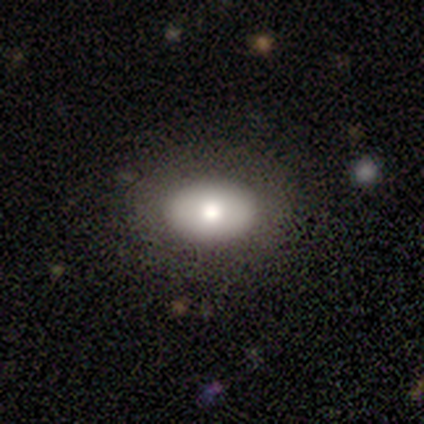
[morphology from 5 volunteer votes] This is clearly a smooth galaxy (100%). How rounded: clearly in between (100%). Merging: clearly none (80%).